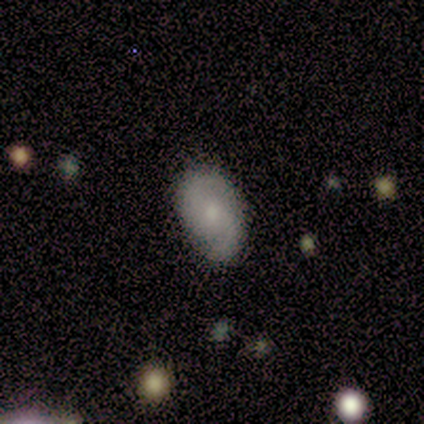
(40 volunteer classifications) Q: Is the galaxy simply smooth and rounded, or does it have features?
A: featured or disk — 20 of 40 (50%).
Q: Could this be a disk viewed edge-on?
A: no — 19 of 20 (95%).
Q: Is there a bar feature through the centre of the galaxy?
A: weak — 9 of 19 (47%, tied with no).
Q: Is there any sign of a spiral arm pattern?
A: yes — 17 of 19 (89%).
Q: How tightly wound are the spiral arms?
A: medium — 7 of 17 (41%, tied with loose).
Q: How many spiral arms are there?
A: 2 — 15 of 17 (88%).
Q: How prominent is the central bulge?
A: small — 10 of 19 (53%).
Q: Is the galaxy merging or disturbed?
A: none — 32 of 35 (91%).